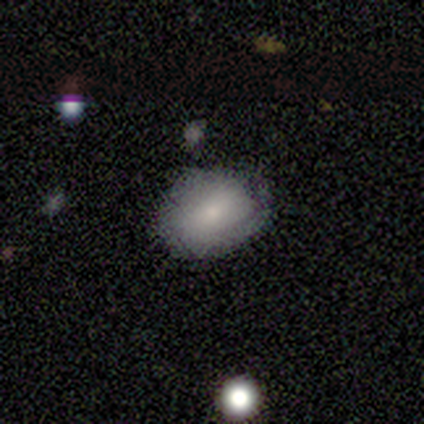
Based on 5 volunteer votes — A smooth galaxy with no disk features (80%) that is in between round and cigar-shaped (100%).

Vote fractions:
- Smooth or featured? smooth: 80% / featured or disk: 20% / star or artifact: 0%
- How rounded? in between: 100% / round: 0% / cigar-shaped: 0%
- Merging? none: 60% / minor disturbance: 20% / major disturbance: 20% / merger: 0%